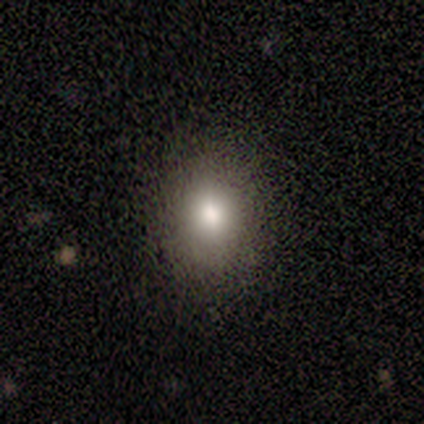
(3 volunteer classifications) Smooth or featured? smooth (67%)
How rounded? in between (100%)
Merging? none (100%)